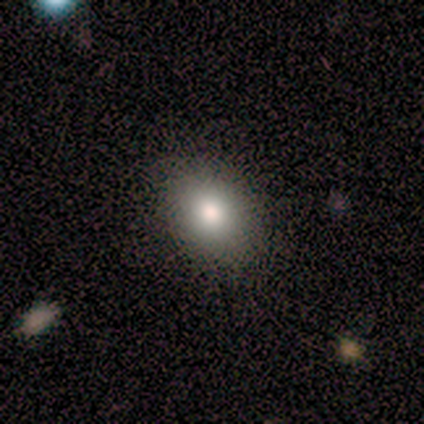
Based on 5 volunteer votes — smooth_or_featured: smooth (p=0.80) [alt: featured or disk p=0.20]
how_rounded: in between (p=0.75) [alt: round p=0.25]
merging: none (p=1.00)